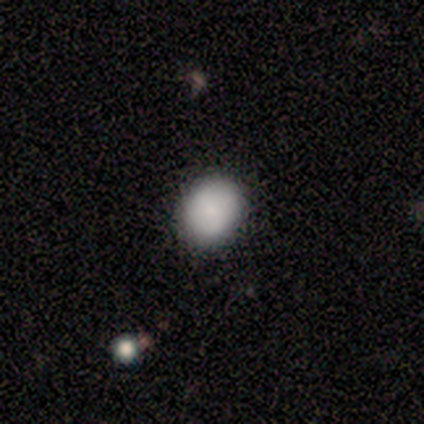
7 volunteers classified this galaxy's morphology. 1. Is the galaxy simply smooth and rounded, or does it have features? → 86% smooth, 14% featured or disk, 0% star or artifact.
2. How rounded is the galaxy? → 67% round, 33% in between, 0% cigar-shaped.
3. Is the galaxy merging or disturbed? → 71% none, 29% minor disturbance, 0% major disturbance, 0% merger.